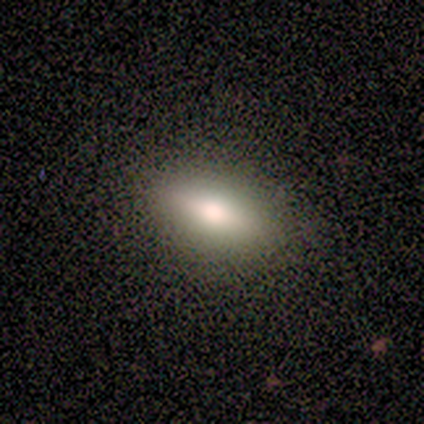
A smooth galaxy with no disk features (100%) that is in between round and cigar-shaped (60%). Merging: none (100%).